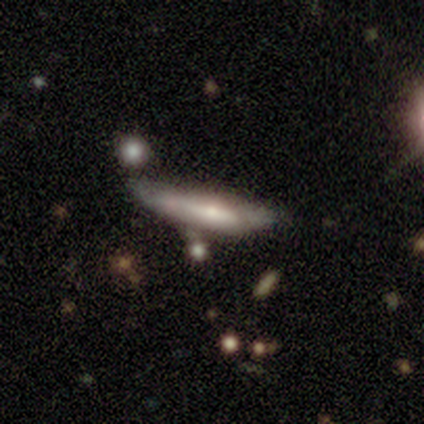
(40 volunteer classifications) Overall: smooth (52%; featured or disk 45%). How rounded: cigar-shaped (71%). Merging: none (36%, tied with minor disturbance).